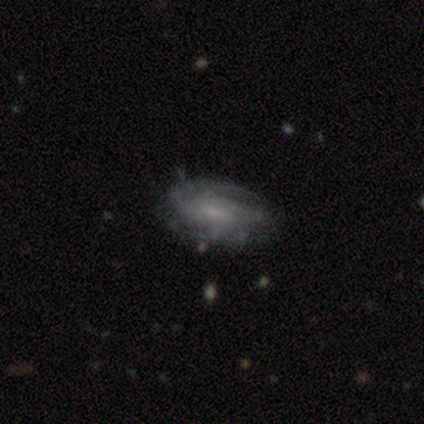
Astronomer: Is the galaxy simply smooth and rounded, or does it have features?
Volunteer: featured or disk — 88%.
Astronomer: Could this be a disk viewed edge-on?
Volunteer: no — 94%.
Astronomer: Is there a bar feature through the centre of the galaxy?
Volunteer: weak — 50% (runner-up: no, 47%).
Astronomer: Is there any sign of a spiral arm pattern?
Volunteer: yes — 91%.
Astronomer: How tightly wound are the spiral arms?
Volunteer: tight — 52% (runner-up: medium, 29%).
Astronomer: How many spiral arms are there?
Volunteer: can't tell — 45%.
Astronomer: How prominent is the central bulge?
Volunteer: small — 62%.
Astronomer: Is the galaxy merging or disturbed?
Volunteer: none — 68%.